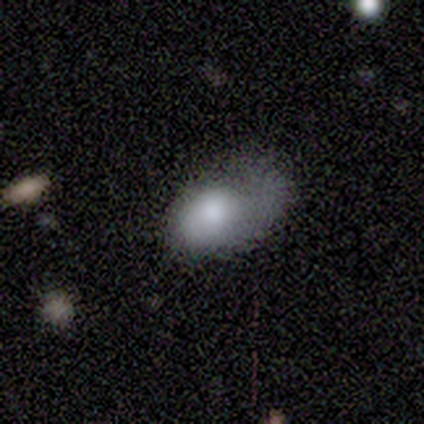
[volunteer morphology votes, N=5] type=smooth (60%); roundness=in between (100%); merging=none (80%).